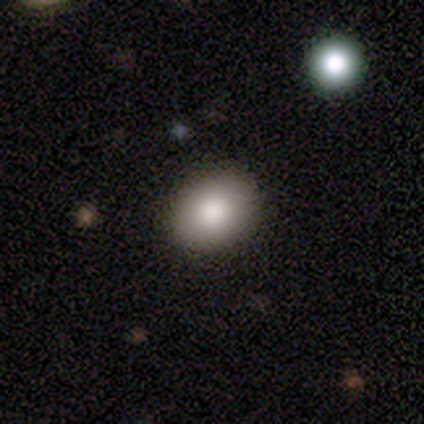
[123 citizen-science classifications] This is clearly a smooth galaxy (87%). How rounded: likely in between (61%). Merging: clearly none (90%).